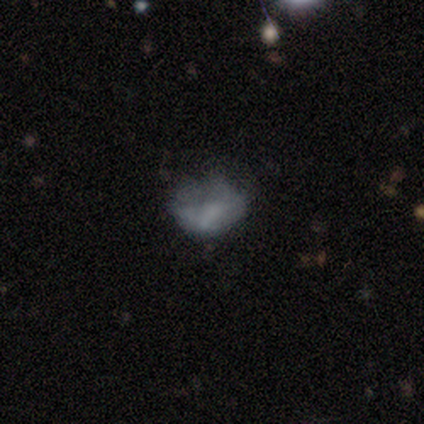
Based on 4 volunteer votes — This is possibly a featured or disk galaxy (50%). It is clearly not viewed edge-on (100%). Bar: clearly no (100%). Spiral arm pattern: clearly no (100%). Central bulge: clearly none (100%). Merging: likely none (67%).